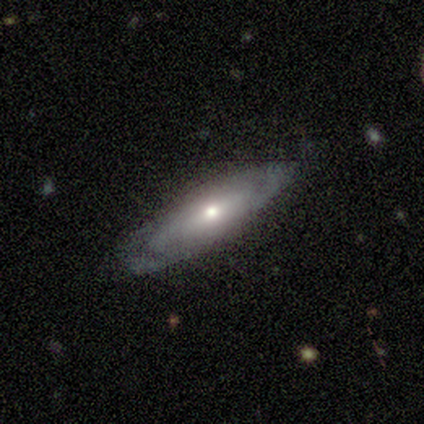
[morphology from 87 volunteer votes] A featured or disk galaxy (72%) with no bar (72%), tight (46%) spiral arms (65%) and a moderate central bulge (48%). Merging: none (79%).